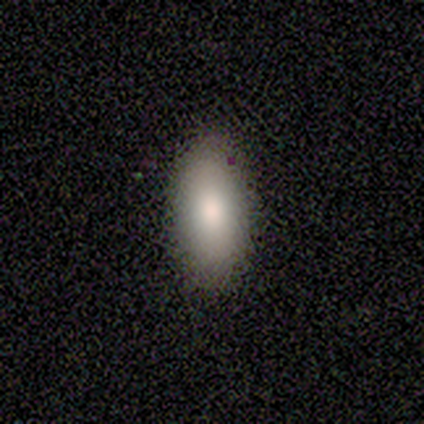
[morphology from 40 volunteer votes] smooth_or_featured: smooth (p=0.88) [alt: featured or disk p=0.10]
how_rounded: in between (p=0.94) [alt: cigar-shaped p=0.06]
merging: none (p=0.64) [alt: minor disturbance p=0.13]